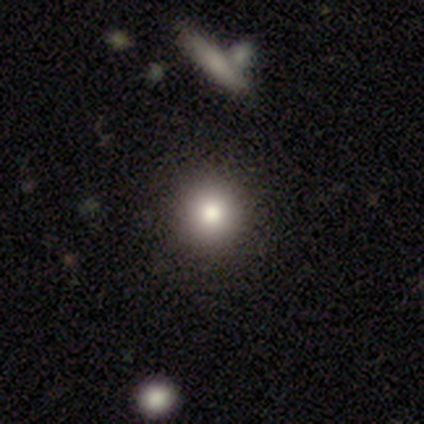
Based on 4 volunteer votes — A smooth galaxy with no disk features (75%) that is round (100%). Merging: none (75%).